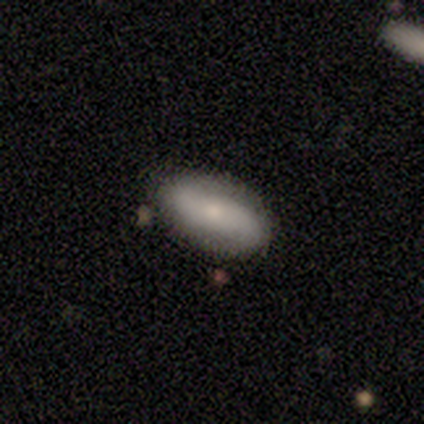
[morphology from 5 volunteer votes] smooth-or-featured: smooth: 60% | featured or disk: 40% | star or artifact: 0%
  how-rounded: in between: 100% | round: 0% | cigar-shaped: 0%
  merging: none: 80% | minor disturbance: 20% | major disturbance: 0% | merger: 0%